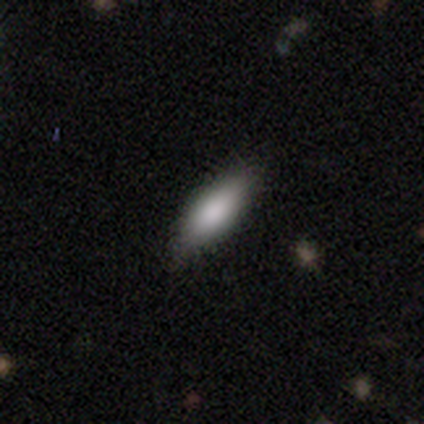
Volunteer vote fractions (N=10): Q: Smooth or featured?
A: smooth (90%); runner-up: featured or disk (10%)
Q: How rounded?
A: in between (67%); runner-up: cigar-shaped (33%)
Q: Merging?
A: none (70%); runner-up: minor disturbance (20%)